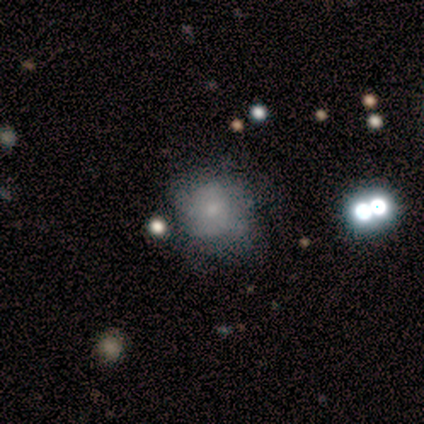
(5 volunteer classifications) Q: Smooth or featured?
A: smooth (40%); tied with: featured or disk (40%)
Q: How rounded?
A: round (100%)
Q: Merging?
A: none (75%); runner-up: major disturbance (25%)